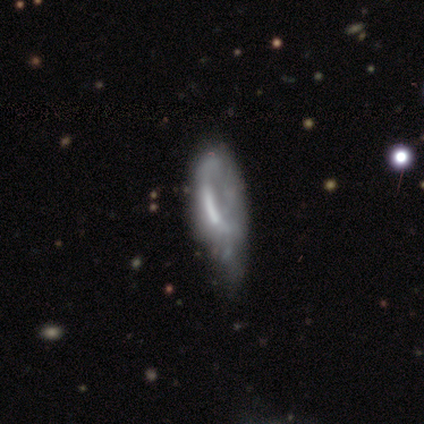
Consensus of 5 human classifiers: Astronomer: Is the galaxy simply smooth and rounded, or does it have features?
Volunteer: featured or disk — 60% (runner-up: smooth, 40%).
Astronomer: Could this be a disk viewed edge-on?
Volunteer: no — 100%.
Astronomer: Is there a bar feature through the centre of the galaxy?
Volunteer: no — 67%.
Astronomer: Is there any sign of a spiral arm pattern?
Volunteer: no — 100%.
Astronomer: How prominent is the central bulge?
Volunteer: large — 33%, tied with moderate and none at 33%.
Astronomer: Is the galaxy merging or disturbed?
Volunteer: minor disturbance — 60% (runner-up: major disturbance, 40%).